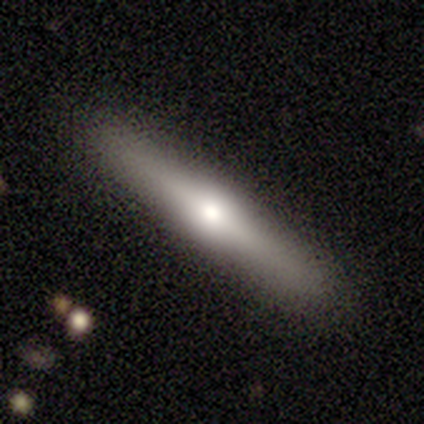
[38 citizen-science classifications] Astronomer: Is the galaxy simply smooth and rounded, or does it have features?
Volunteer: featured or disk — 63%.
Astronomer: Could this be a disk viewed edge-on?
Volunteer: yes — 100%.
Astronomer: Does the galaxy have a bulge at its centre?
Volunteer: rounded — 79%.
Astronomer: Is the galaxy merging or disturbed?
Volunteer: none — 92%.